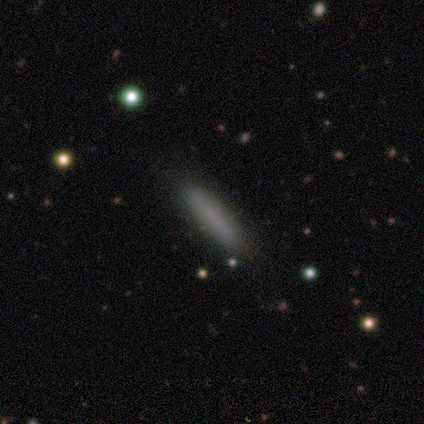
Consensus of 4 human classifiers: A smooth galaxy with no disk features (50%) that is cigar-shaped (100%).

Vote fractions:
- Smooth or featured? smooth: 50% / featured or disk: 25% / star or artifact: 25%
- How rounded? cigar-shaped: 100% / round: 0% / in between: 0%
- Merging? none: 100% / minor disturbance: 0% / major disturbance: 0% / merger: 0%